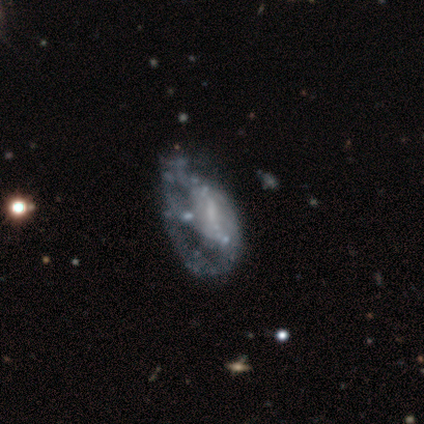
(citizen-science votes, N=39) Volunteers were most divided on "bar": no: 58%, weak: 32%, strong: 10%. More confident: edge-on disk — no (100%); smooth or featured — featured or disk (79%); spiral arms — no (74%); bulge size — none (61%); merging — major disturbance (51%).